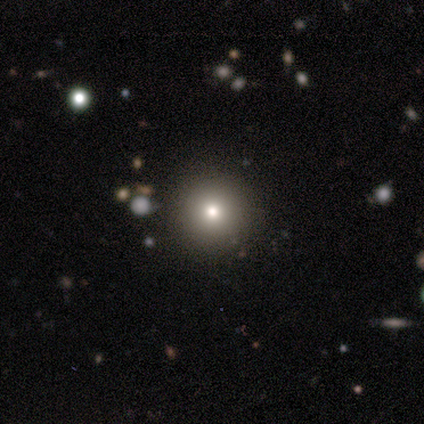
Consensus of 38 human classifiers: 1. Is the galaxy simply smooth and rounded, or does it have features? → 68% smooth, 16% featured or disk, 16% star or artifact.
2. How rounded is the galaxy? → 96% round, 4% in between, 0% cigar-shaped.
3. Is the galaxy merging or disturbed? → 100% none, 0% minor disturbance, 0% major disturbance, 0% merger.